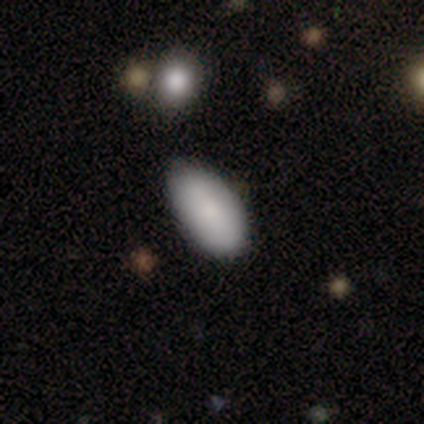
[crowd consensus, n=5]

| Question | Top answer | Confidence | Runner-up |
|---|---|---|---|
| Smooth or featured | smooth | 100% | — |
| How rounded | in between | 100% | — |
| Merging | none | 80% | minor disturbance (20%) |